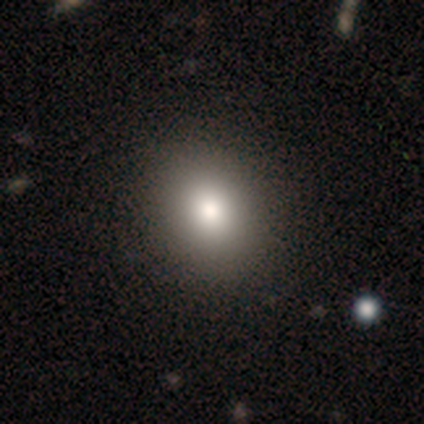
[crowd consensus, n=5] Overall: smooth (80%). How rounded: round (75%). Merging: none (75%).